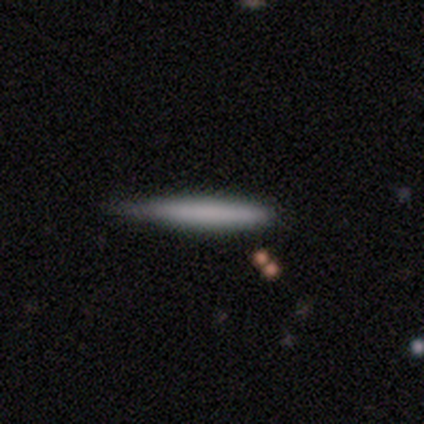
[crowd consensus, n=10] Smooth or featured? 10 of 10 (100%) said smooth. How rounded? 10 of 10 (100%) said cigar-shaped. Merging? 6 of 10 (60%) said none.